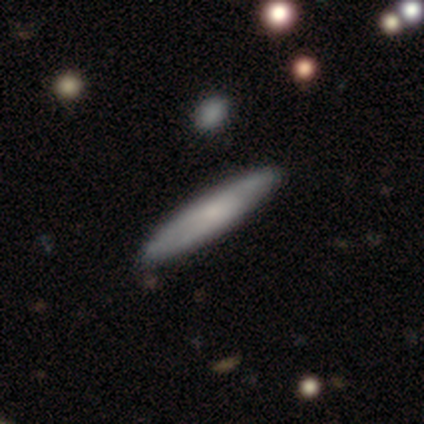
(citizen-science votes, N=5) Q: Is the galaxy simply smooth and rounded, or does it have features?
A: smooth — 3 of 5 (60%).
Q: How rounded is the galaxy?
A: cigar-shaped — 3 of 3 (100%).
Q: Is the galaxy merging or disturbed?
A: none — 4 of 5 (80%).